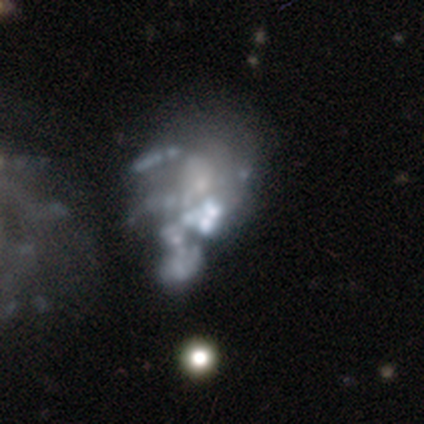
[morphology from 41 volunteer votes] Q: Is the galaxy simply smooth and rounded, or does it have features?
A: featured or disk — 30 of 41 (73%).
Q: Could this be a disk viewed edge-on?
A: no — 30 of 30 (100%).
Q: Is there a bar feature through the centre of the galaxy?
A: no — 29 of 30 (97%).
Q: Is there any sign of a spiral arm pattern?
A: no — 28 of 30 (93%).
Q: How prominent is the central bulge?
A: none — 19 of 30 (63%).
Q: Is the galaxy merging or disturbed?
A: major disturbance — 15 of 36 (42%).